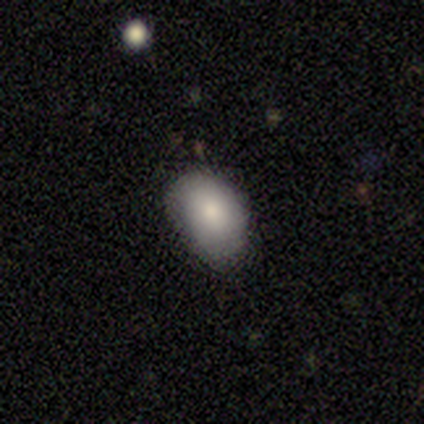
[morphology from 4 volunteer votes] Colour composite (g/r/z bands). It shows a smooth galaxy with no disk features (100%) that is in between round and cigar-shaped (100%). Merging: none (75%).